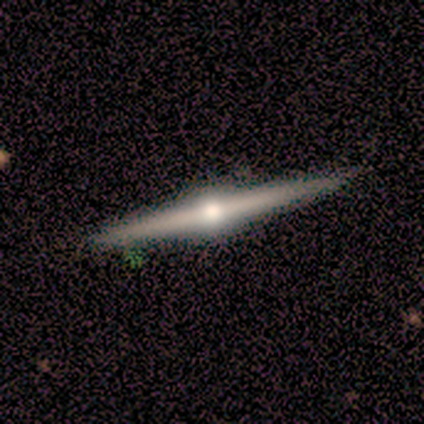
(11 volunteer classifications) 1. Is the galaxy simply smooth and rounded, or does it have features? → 100% featured or disk, 0% smooth, 0% star or artifact.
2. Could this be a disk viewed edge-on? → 100% yes, 0% no.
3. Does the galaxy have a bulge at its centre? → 100% rounded, 0% boxy, 0% none.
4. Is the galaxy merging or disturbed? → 100% none, 0% minor disturbance, 0% major disturbance, 0% merger.